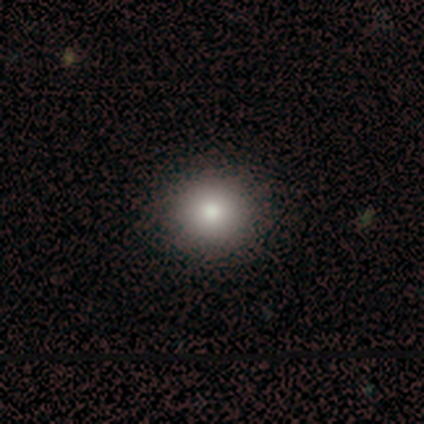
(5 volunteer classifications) Volunteers were most divided on "how rounded": round: 80%, in between: 20%, cigar-shaped: 0%. More confident: smooth or featured — smooth (100%); merging — none (80%).